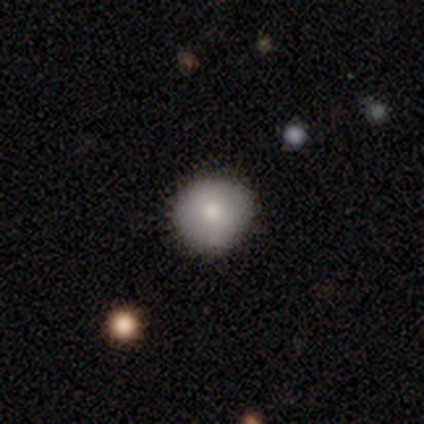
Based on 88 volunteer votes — A smooth galaxy with no disk features (83%) that is round (89%). Merging: none (86%).